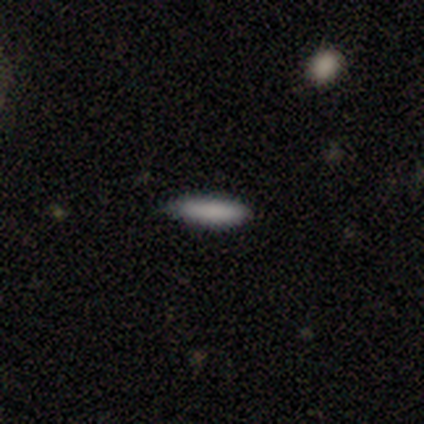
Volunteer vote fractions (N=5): Smooth or featured?
  - smooth: 100% *
  - featured or disk: 0%
  - star or artifact: 0%
How rounded?
  - in between: 100% *
  - round: 0%
  - cigar-shaped: 0%
Merging?
  - none: 100% *
  - minor disturbance: 0%
  - major disturbance: 0%
  - merger: 0%